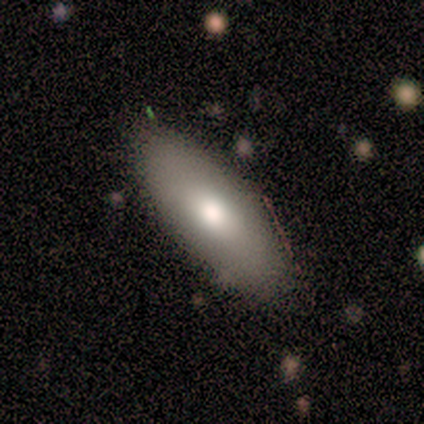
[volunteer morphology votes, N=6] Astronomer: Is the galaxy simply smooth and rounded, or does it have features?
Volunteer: smooth — 67%.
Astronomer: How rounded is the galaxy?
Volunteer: in between — 75%.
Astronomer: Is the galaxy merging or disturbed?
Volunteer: none — 67%.